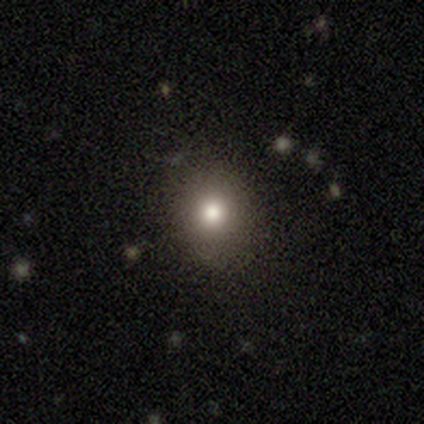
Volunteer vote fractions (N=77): Q: Smooth or featured?
A: smooth (69%); runner-up: star or artifact (17%)
Q: How rounded?
A: round (77%); runner-up: in between (23%)
Q: Merging?
A: none (45%); runner-up: minor disturbance (3%)